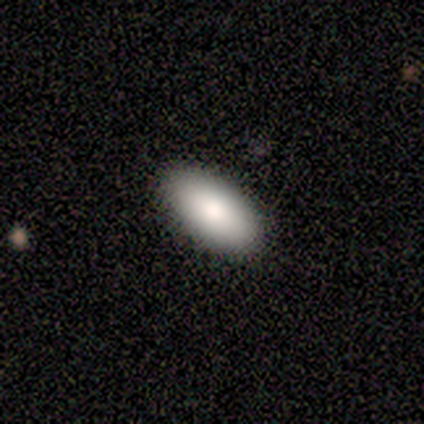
smooth-or-featured: smooth: 50% (tied) | featured or disk: 50% (tied) | star or artifact: 0%
  how-rounded: in between: 100% | round: 0% | cigar-shaped: 0%
  merging: none: 100% | minor disturbance: 0% | major disturbance: 0% | merger: 0%